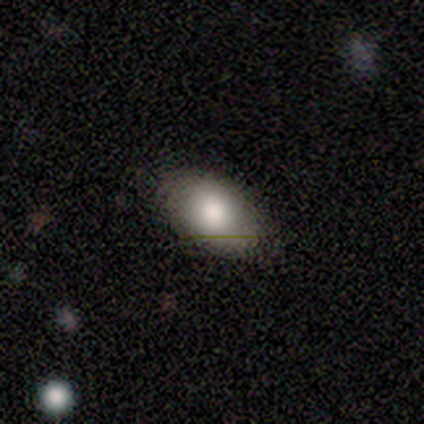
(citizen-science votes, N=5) smooth 100%, featured or disk 0%, star or artifact 0%. Down the decision tree: how rounded — in between (100%); merging — none (80%).